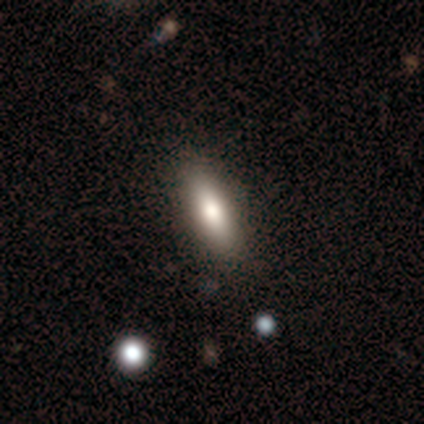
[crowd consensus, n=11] A smooth galaxy with no disk features (91%) that is in between round and cigar-shaped (70%). Merging: none (91%).